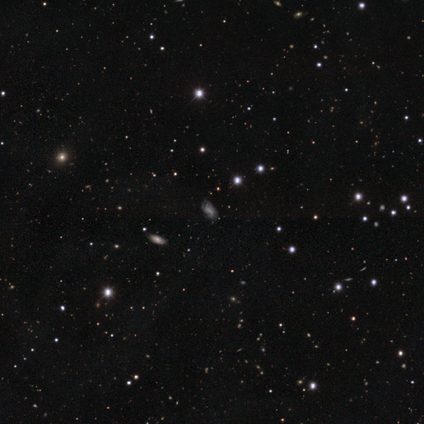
This is possibly a featured or disk galaxy (50%). It is clearly not viewed edge-on (100%). Bar: possibly weak (50%, tied with no). Spiral arm pattern: clearly yes (100%). Spiral arm count: clearly can't tell (100%). Spiral winding: possibly medium (50%, tied with loose). Central bulge: clearly none (100%). Merging: marginally none (33%, tied with minor disturbance and major disturbance).